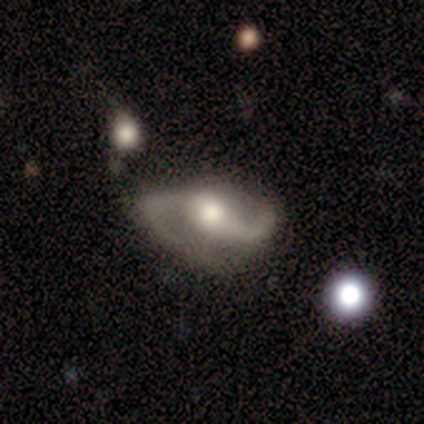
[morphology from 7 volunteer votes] Smooth or featured?
  - featured or disk: 100% *
  - smooth: 0%
  - star or artifact: 0%
Edge-on disk?
  - no: 100% *
  - yes: 0%
Bar?
  - weak: 43% * (tied)
  - no: 43% * (tied)
  - strong: 14%
Spiral arms?
  - yes: 100% *
  - no: 0%
Spiral winding?
  - loose: 71% *
  - medium: 29%
  - tight: 0%
Spiral arm count?
  - 2: 100% *
  - 1: 0%
  - 3: 0%
  - 4: 0%
  - more than 4: 0%
  - can't tell: 0%
Bulge size?
  - moderate: 57% *
  - large: 14%
  - small: 14%
  - none: 14%
  - dominant: 0%
Merging?
  - minor disturbance: 43% *
  - none: 29%
  - major disturbance: 29%
  - merger: 0%